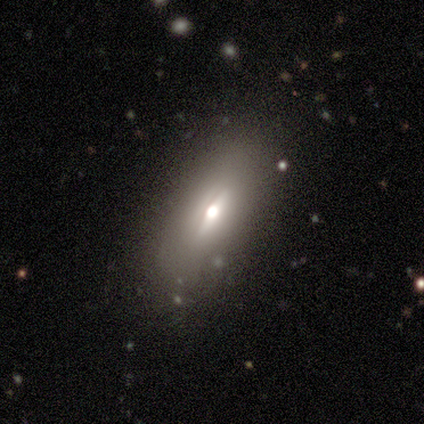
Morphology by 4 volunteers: This is possibly a smooth galaxy (50%). How rounded: clearly in between (100%). Merging: clearly none (100%).